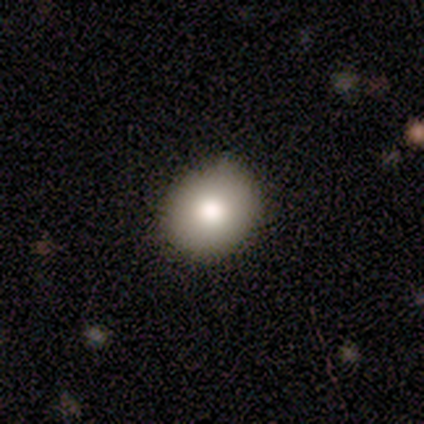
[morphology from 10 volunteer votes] Overall: smooth (40%, tied with featured or disk). How rounded: round (75%). Merging: none (75%).